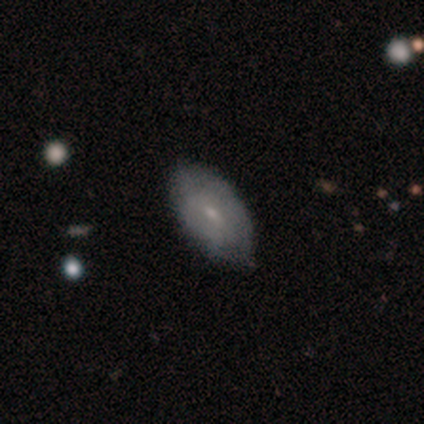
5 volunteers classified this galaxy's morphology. Overall: smooth (80%). How rounded: in between (100%). Merging: none (100%).